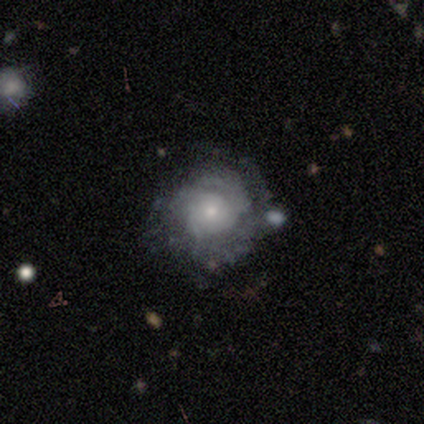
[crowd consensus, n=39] Smooth or featured? featured or disk (82%)
Edge-on disk? no (100%)
Bar? no (75%)
Spiral arms? yes (81%)
Spiral winding? tight (62%)
Spiral arm count? can't tell (65%)
Bulge size? small (59%)
Merging? none (62%)